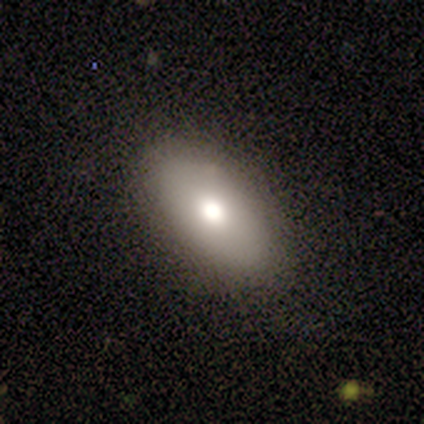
smooth-or-featured: smooth: 70% | featured or disk: 24% | star or artifact: 5%
  how-rounded: in between: 92% | round: 4% | cigar-shaped: 4%
  merging: none: 89% | minor disturbance: 9% | major disturbance: 3% | merger: 0%